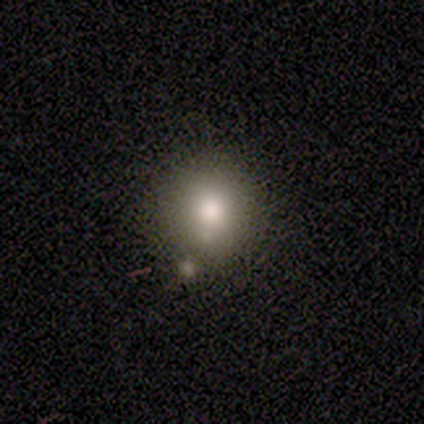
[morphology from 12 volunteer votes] Q: Smooth or featured?
A: smooth (83%); runner-up: featured or disk (17%)
Q: How rounded?
A: round (100%)
Q: Merging?
A: none (58%); runner-up: minor disturbance (25%)